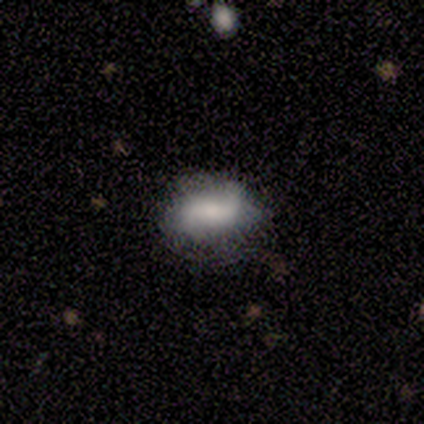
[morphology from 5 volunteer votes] Volunteers were most divided on "merging" (2-way tie): none: 40%, major disturbance: 40%, minor disturbance: 20%, merger: 0%. More confident: how rounded — in between (67%); smooth or featured — smooth (60%).